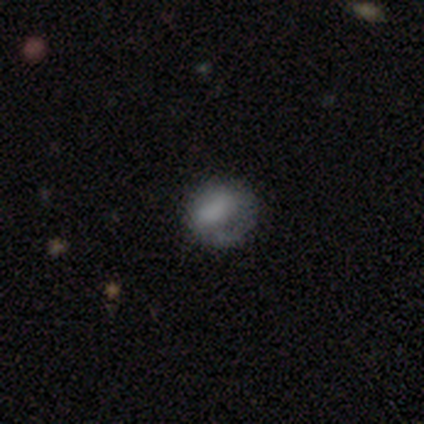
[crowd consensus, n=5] smooth-or-featured: smooth: 60% | featured or disk: 40% | star or artifact: 0%
  how-rounded: round: 67% | in between: 33% | cigar-shaped: 0%
  merging: minor disturbance: 80% | none: 20% | major disturbance: 0% | merger: 0%